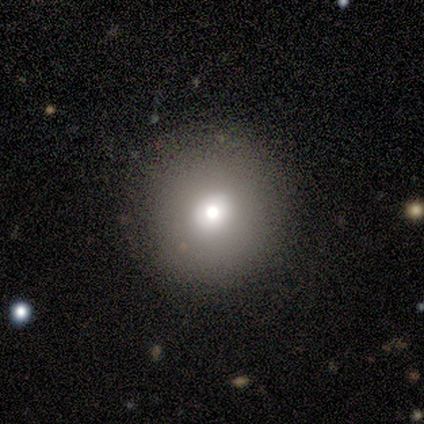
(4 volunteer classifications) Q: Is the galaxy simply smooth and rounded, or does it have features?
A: smooth — 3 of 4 (75%).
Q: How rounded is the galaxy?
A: round — 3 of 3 (100%).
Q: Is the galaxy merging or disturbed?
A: none — 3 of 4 (75%).